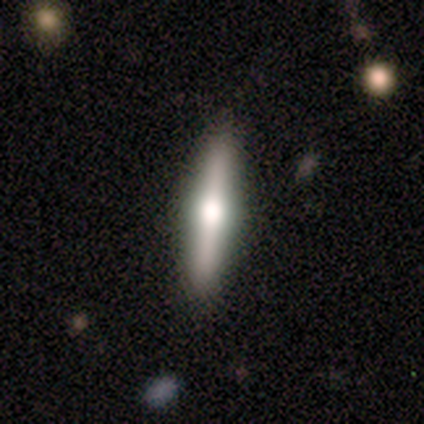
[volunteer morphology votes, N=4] Volunteers were most divided on "smooth or featured" (2-way tie): smooth: 50%, featured or disk: 50%, star or artifact: 0%. More confident: how rounded — cigar-shaped (100%); merging — none (100%).